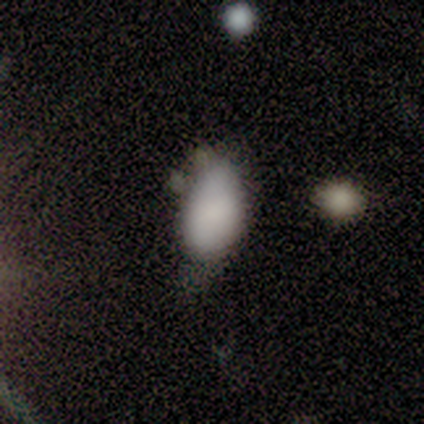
Smooth or featured? smooth (100%)
How rounded? in between (100%)
Merging? none (40%, tied with major disturbance)